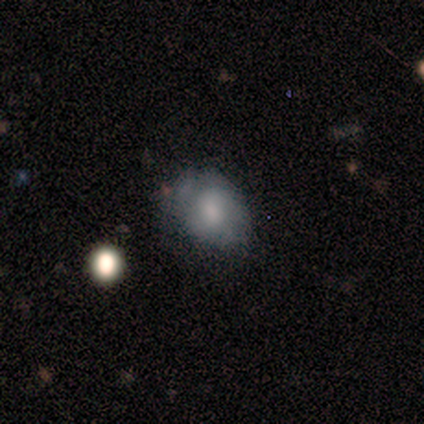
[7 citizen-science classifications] Smooth or featured?
  - smooth: 71% *
  - featured or disk: 14%
  - star or artifact: 14%
How rounded?
  - in between: 80% *
  - round: 20%
  - cigar-shaped: 0%
Merging?
  - none: 67% *
  - major disturbance: 33%
  - minor disturbance: 0%
  - merger: 0%